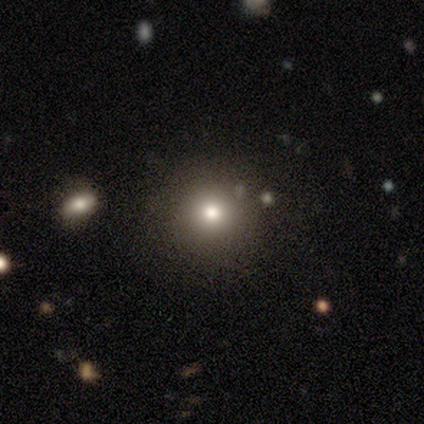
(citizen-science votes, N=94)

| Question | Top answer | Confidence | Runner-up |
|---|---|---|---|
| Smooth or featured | smooth | 81% | featured or disk (10%) |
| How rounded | round | 93% | in between (7%) |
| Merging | none | 86% | minor disturbance (12%) |